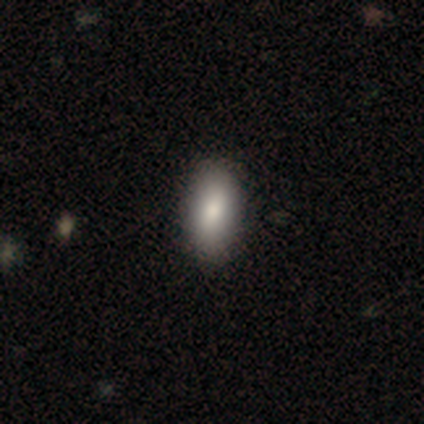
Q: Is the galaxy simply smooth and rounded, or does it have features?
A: smooth — 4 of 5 (80%).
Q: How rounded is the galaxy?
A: in between — 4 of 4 (100%).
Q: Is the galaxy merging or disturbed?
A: none — 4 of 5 (80%).